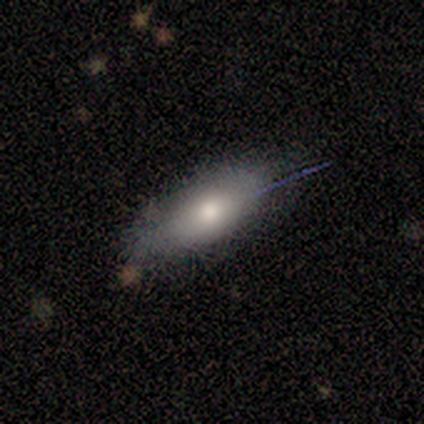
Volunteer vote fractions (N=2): This is possibly a smooth galaxy (50%, tied with featured or disk). How rounded: clearly cigar-shaped (100%). Merging: clearly none (100%).